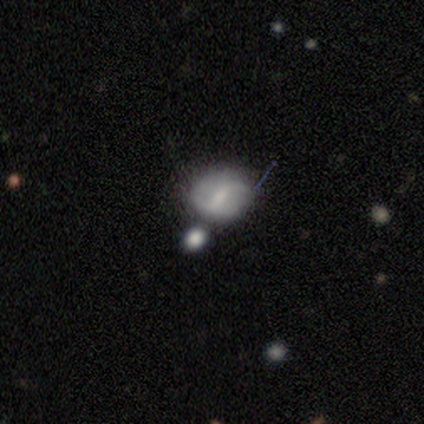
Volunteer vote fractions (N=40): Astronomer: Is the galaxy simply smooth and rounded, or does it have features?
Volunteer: smooth — 57% (runner-up: featured or disk, 32%).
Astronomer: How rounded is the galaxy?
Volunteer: round — 52% (runner-up: in between, 48%).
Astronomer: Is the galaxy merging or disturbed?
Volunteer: none — 50%.